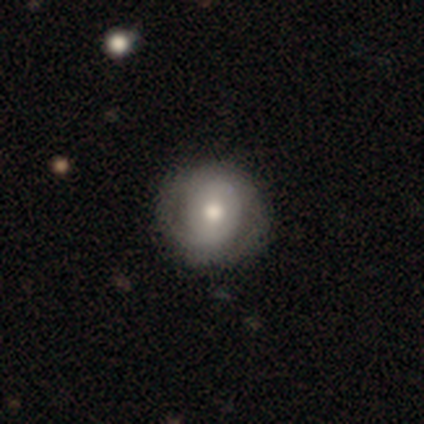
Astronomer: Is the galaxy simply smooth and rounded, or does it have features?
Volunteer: smooth — 50%, tied with featured or disk at 50%.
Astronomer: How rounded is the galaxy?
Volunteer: round — 100%.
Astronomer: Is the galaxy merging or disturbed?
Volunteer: none — 50%, tied with minor disturbance at 50%.